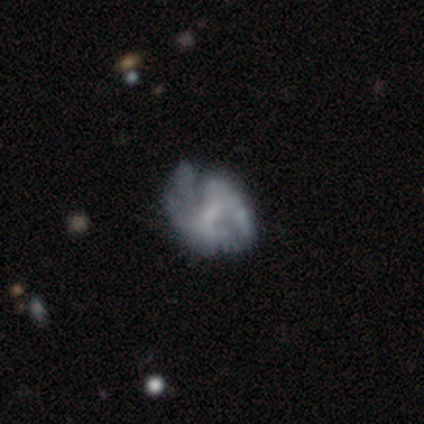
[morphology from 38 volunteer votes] A featured or disk galaxy (82%) with a weak bar (52%), no spiral arms (52%) and no central bulge (61%). Merging: minor disturbance (24%).